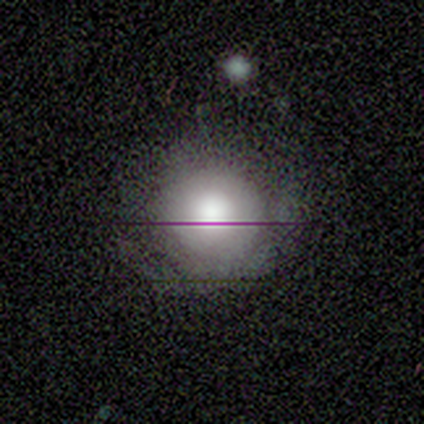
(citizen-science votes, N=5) Volunteers were most divided on "smooth or featured": smooth: 60%, featured or disk: 20%, star or artifact: 20%. More confident: how rounded — round (100%); merging — none (75%).